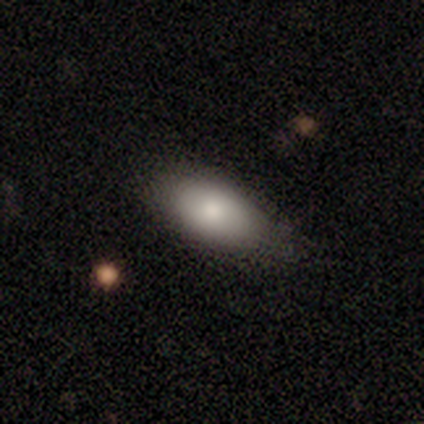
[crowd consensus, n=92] smooth 75%, featured or disk 17%, star or artifact 8%. Down the decision tree: how rounded — in between (97%); merging — none (84%).